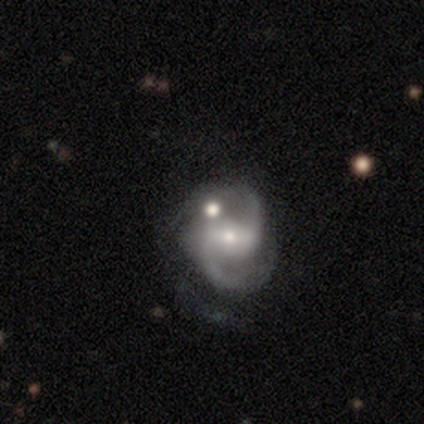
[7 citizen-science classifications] A featured or disk galaxy (86%) with a weak bar (60%), 2 (100%) medium (60%) spiral arms (100%) and a small central bulge (60%).

Vote fractions:
- Smooth or featured? featured or disk: 86% / smooth: 14% / star or artifact: 0%
- Edge-on disk? no: 83% / yes: 17%
- Bar? weak: 60% / no: 40% / strong: 0%
- Spiral arms? yes: 100% / no: 0%
- Spiral winding? medium: 60% / loose: 40% / tight: 0%
- Spiral arm count? 2: 100% / 1: 0% / 3: 0% / 4: 0% / more than 4: 0% / can't tell: 0%
- Bulge size? small: 60% / moderate: 40% / dominant: 0% / large: 0% / none: 0%
- Merging? none: 86% / major disturbance: 14% / minor disturbance: 0% / merger: 0%